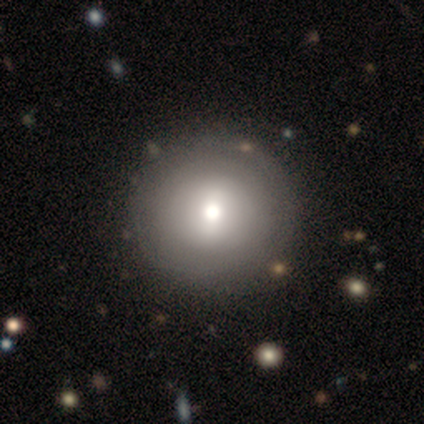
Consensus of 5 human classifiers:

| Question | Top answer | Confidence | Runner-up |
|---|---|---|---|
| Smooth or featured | smooth | 60% | featured or disk (40%) |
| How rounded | round | 100% | — |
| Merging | none | 80% | major disturbance (20%) |